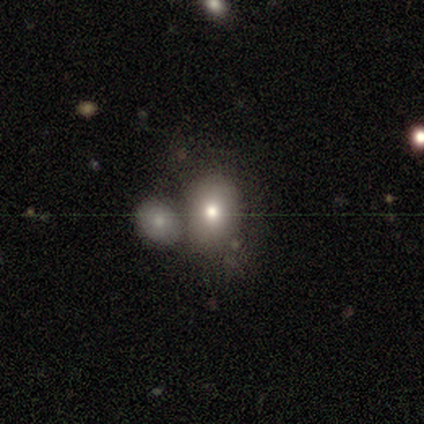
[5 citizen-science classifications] A smooth galaxy with no disk features (40%, tied with featured or disk) that is round (50%, tied with in between). Merging: none (50%).